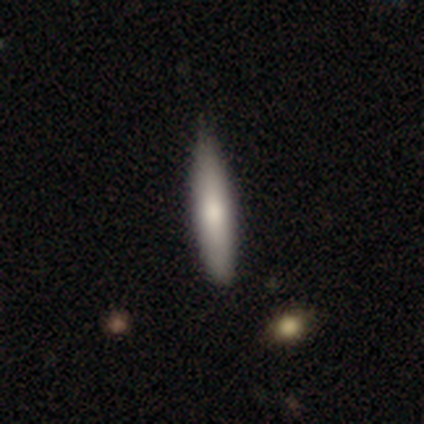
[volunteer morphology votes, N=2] Smooth or featured? smooth (100%)
How rounded? cigar-shaped (100%)
Merging? none (100%)